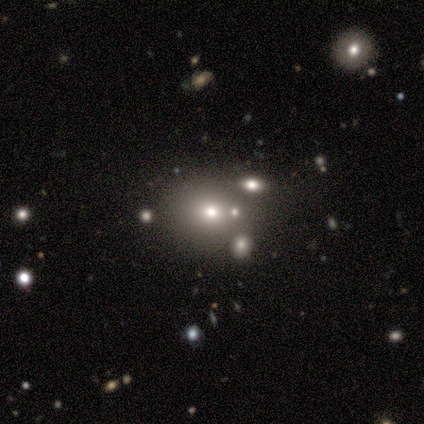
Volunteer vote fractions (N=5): smooth-or-featured: star or artifact: 60% | smooth: 40% | featured or disk: 0%